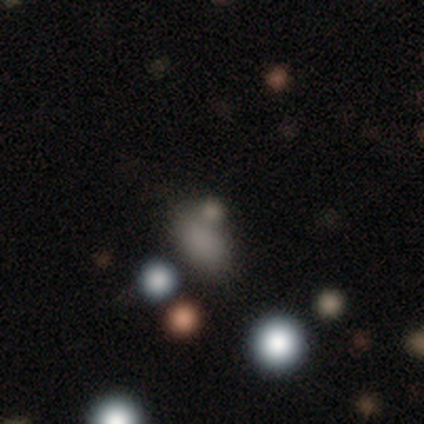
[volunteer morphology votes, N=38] A smooth galaxy with no disk features (63%) that is in between round and cigar-shaped (62%).

Vote fractions:
- Smooth or featured? smooth: 63% / star or artifact: 26% / featured or disk: 11%
- How rounded? in between: 62% / round: 38% / cigar-shaped: 0%
- Merging? none: 57% / merger: 21% / minor disturbance: 14% / major disturbance: 7%